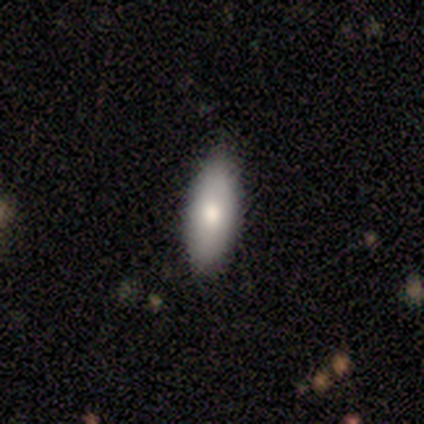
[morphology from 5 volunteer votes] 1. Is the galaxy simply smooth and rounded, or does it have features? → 60% smooth, 20% featured or disk, 20% star or artifact.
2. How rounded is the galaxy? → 67% in between, 33% cigar-shaped, 0% round.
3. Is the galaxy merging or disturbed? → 50% minor disturbance, 25% none, 25% major disturbance, 0% merger.